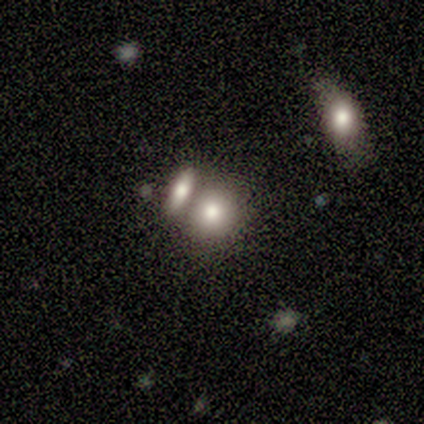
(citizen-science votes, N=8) This is likely a smooth galaxy (62%). How rounded: likely round (60%). Merging: marginally none (43%, tied with merger).